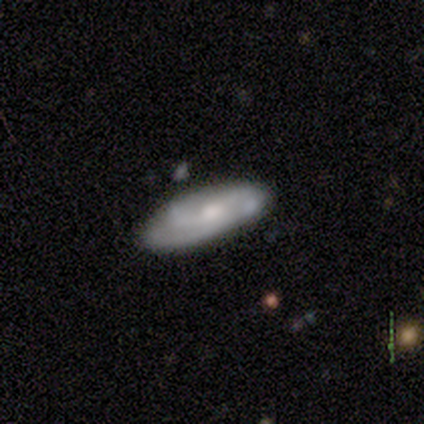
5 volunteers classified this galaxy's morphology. Smooth or featured? 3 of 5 (60%) said featured or disk. Edge-on disk? 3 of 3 (100%) said no. Bar? 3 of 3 (100%) said no. Spiral arms? 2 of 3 (67%) said no. Bulge size? 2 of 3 (67%) said moderate. Merging? 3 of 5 (60%) said minor disturbance.